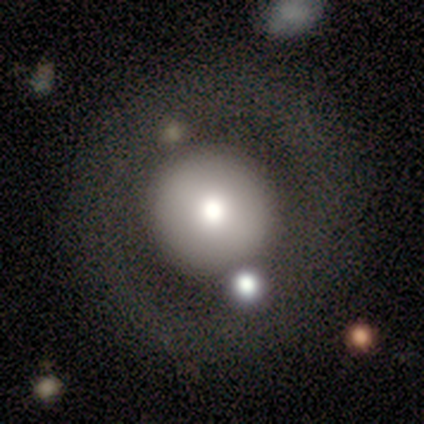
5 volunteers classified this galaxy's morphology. Smooth or featured? 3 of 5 (60%) said smooth. How rounded? 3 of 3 (100%) said round. Merging? 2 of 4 (50%) said none.